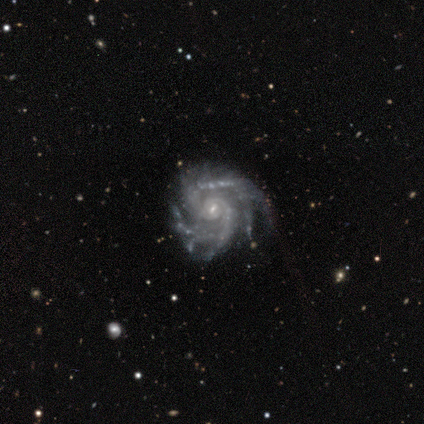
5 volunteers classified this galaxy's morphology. Smooth or featured?
  - featured or disk: 100% *
  - smooth: 0%
  - star or artifact: 0%
Edge-on disk?
  - no: 100% *
  - yes: 0%
Bar?
  - weak: 60% *
  - no: 40%
  - strong: 0%
Spiral arms?
  - yes: 100% *
  - no: 0%
Spiral winding?
  - medium: 80% *
  - tight: 20%
  - loose: 0%
Spiral arm count?
  - 2: 60% *
  - 4: 40%
  - 1: 0%
  - 3: 0%
  - more than 4: 0%
  - can't tell: 0%
Bulge size?
  - small: 100% *
  - dominant: 0%
  - large: 0%
  - moderate: 0%
  - none: 0%
Merging?
  - none: 40% * (tied)
  - minor disturbance: 40% * (tied)
  - major disturbance: 20%
  - merger: 0%